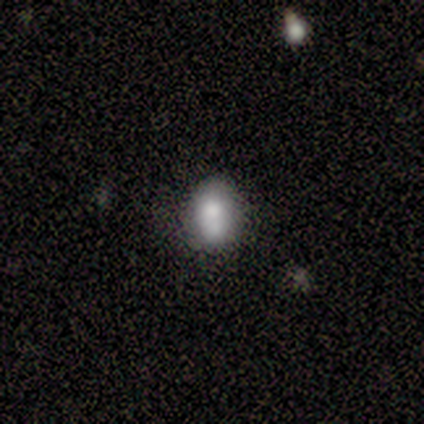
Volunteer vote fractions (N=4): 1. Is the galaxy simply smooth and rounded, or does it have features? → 75% smooth, 25% featured or disk, 0% star or artifact.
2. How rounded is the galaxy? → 67% round, 33% in between, 0% cigar-shaped.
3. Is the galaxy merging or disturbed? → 75% none, 25% merger, 0% minor disturbance, 0% major disturbance.